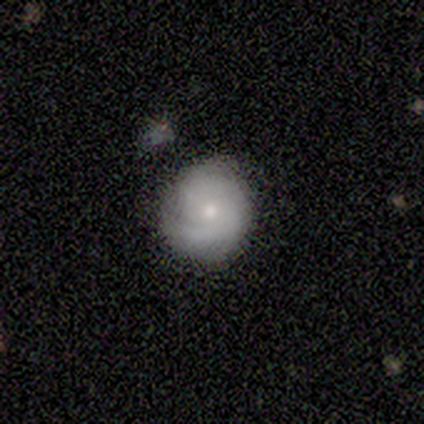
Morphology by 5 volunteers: Q: Smooth or featured?
A: featured or disk (60%); runner-up: smooth (40%)
Q: Edge-on disk?
A: no (100%)
Q: Bar?
A: no (67%); runner-up: weak (33%)
Q: Spiral arms?
A: yes (100%)
Q: Spiral winding?
A: medium (100%)
Q: Spiral arm count?
A: 2 (67%); runner-up: 1 (33%)
Q: Bulge size?
A: small (67%); runner-up: moderate (33%)
Q: Merging?
A: none (100%)